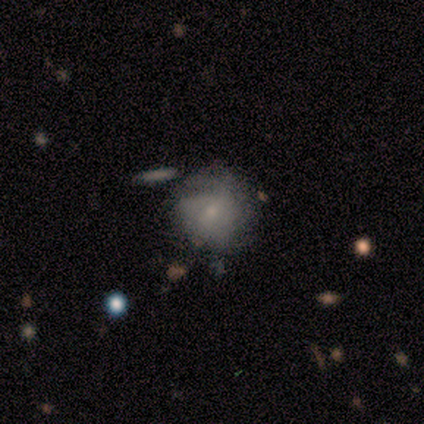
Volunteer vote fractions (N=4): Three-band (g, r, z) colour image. It shows a featured or disk galaxy (75%) with no bar (67%), tight (67%) spiral arms (100%) and a small central bulge (67%). Merging: none (50%, tied with minor disturbance).